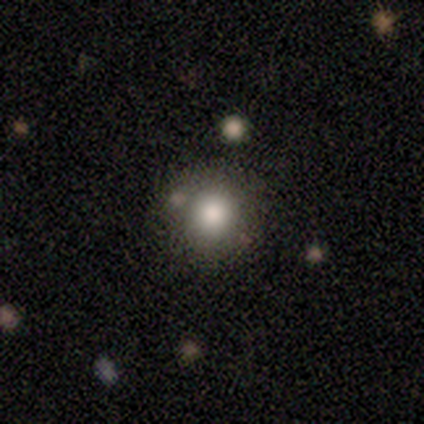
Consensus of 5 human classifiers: Q: Smooth or featured?
A: smooth (80%); runner-up: star or artifact (20%)
Q: How rounded?
A: round (75%); runner-up: in between (25%)
Q: Merging?
A: none (50%); tied with: minor disturbance (50%)